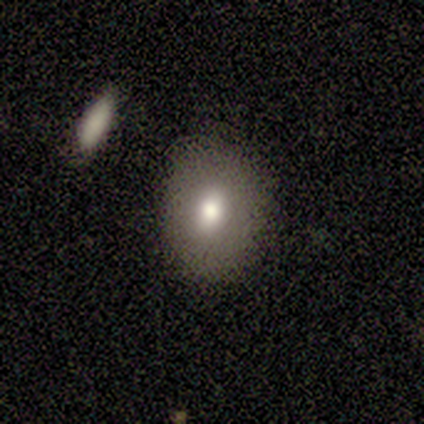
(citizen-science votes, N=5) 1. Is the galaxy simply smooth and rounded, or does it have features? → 80% smooth, 20% star or artifact, 0% featured or disk.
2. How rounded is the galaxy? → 75% round, 25% in between, 0% cigar-shaped.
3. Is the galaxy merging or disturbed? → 100% none, 0% minor disturbance, 0% major disturbance, 0% merger.